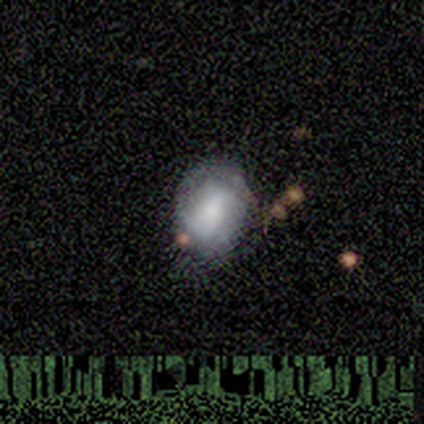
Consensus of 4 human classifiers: This appears to be a featured or disk galaxy (50%) with a weak bar (50%, tied with no), 2 (50%, tied with can't tell) medium (100%) spiral arms (100%) and a moderate central bulge (100%). Merging: none (67%).